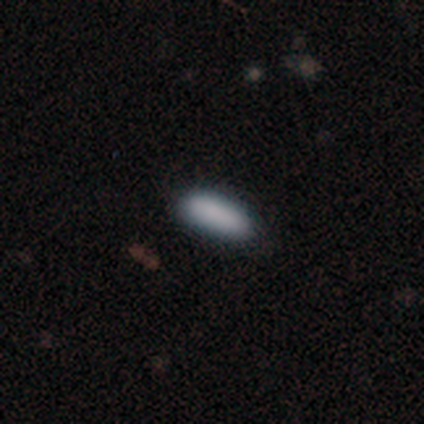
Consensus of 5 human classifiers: Volunteers were most divided on "how rounded": in between: 75%, cigar-shaped: 25%, round: 0%. More confident: merging — none (100%); smooth or featured — smooth (80%).